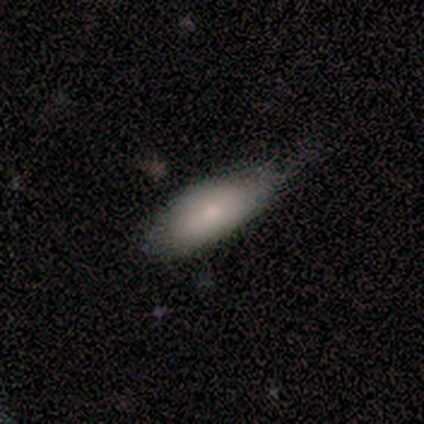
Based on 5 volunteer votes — Q: Smooth or featured?
A: smooth (80%); runner-up: featured or disk (20%)
Q: How rounded?
A: in between (100%)
Q: Merging?
A: minor disturbance (60%); runner-up: none (40%)